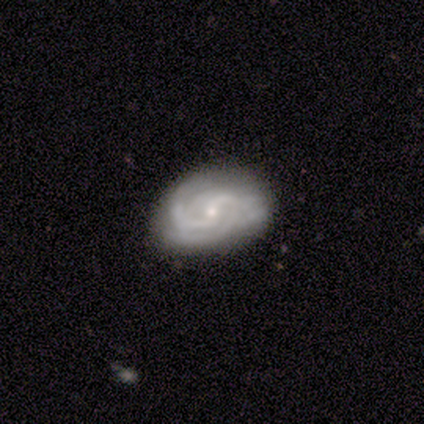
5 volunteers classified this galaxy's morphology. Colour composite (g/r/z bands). It shows a featured or disk galaxy (100%) with a weak bar (40%, tied with no), 2 (60%) medium (40%, tied with loose) spiral arms (100%) and a small central bulge (60%). Merging: none (60%).